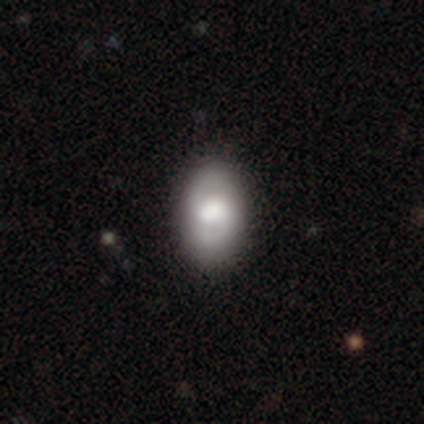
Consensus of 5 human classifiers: This is clearly a featured or disk galaxy (100%). It is clearly not viewed edge-on (80%). Bar: possibly weak (50%, tied with no). Spiral arm pattern: possibly yes (50%, tied with no). Spiral arm count: clearly 2 (100%). Spiral winding: possibly tight (50%, tied with medium). Central bulge: possibly large (50%). Merging: clearly none (100%).